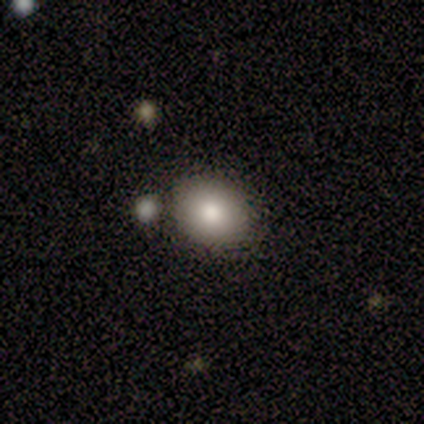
smooth 78%, star or artifact 22%, featured or disk 0%. Down the decision tree: how rounded — round (57%); merging — none (86%).